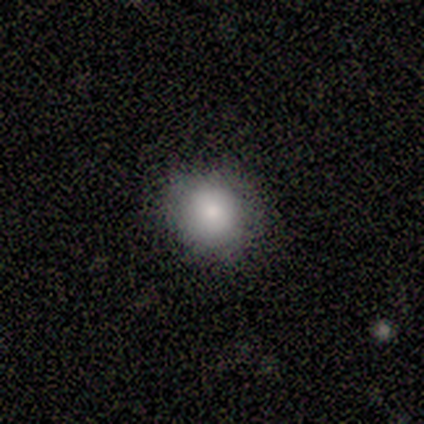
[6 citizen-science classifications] Smooth or featured? 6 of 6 (100%) said smooth. How rounded? 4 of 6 (67%) said round. Merging? 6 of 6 (100%) said none.